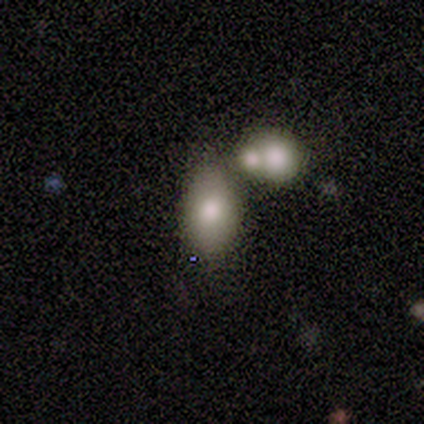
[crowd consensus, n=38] Smooth or featured: smooth — 82% (featured or disk — 16%)
How rounded: in between — 81% (round — 19%)
Merging: none — 46% (merger — 38%)